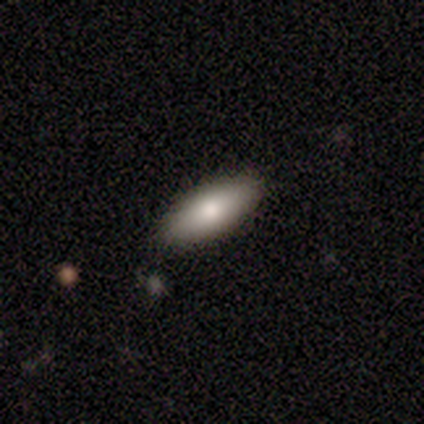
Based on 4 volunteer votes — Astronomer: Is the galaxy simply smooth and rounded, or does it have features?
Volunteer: smooth — 75%.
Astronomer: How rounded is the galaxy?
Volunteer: in between — 100%.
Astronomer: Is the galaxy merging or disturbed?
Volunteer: none — 100%.